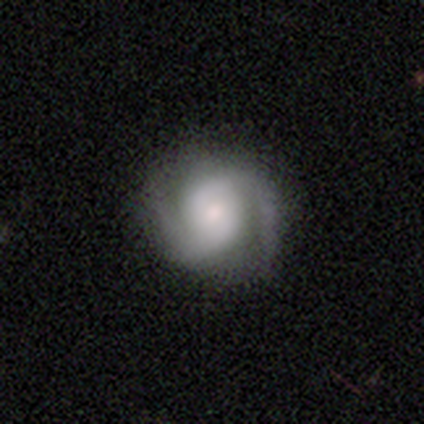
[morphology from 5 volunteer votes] Smooth or featured?
  - featured or disk: 100% *
  - smooth: 0%
  - star or artifact: 0%
Edge-on disk?
  - no: 100% *
  - yes: 0%
Bar?
  - weak: 40% * (tied)
  - no: 40% * (tied)
  - strong: 20%
Spiral arms?
  - yes: 80% *
  - no: 20%
Spiral winding?
  - medium: 75% *
  - loose: 25%
  - tight: 0%
Spiral arm count?
  - 2: 100% *
  - 1: 0%
  - 3: 0%
  - 4: 0%
  - more than 4: 0%
  - can't tell: 0%
Bulge size?
  - small: 60% *
  - moderate: 40%
  - dominant: 0%
  - large: 0%
  - none: 0%
Merging?
  - none: 80% *
  - minor disturbance: 20%
  - major disturbance: 0%
  - merger: 0%